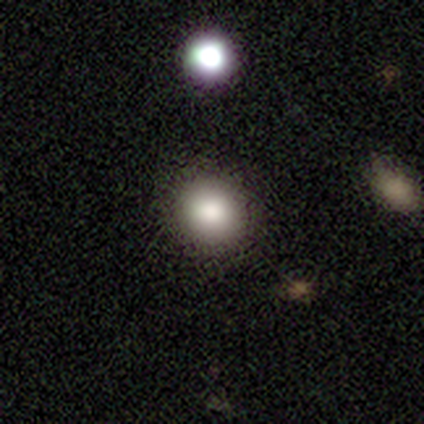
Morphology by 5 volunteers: Overall: smooth (100%). How rounded: round (100%). Merging: none (80%).